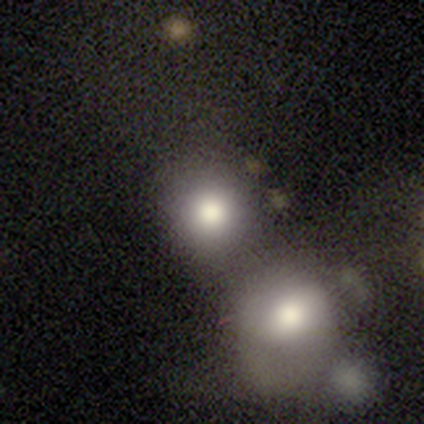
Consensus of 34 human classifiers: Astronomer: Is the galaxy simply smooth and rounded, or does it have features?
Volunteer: smooth — 91%.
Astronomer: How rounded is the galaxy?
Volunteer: round — 84%.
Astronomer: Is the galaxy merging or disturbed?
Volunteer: merger — 53%.